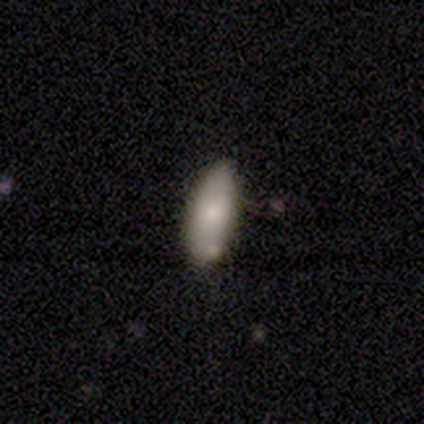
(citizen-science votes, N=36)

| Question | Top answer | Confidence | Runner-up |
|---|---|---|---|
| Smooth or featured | smooth | 89% | featured or disk (11%) |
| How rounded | in between | 72% | cigar-shaped (28%) |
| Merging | none | 83% | minor disturbance (17%) |